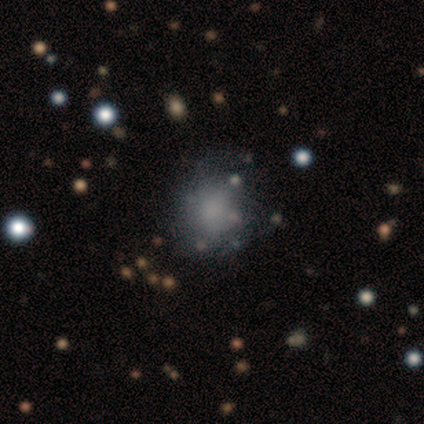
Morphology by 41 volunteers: Smooth or featured? smooth (59%)
How rounded? round (79%)
Merging? none (72%)